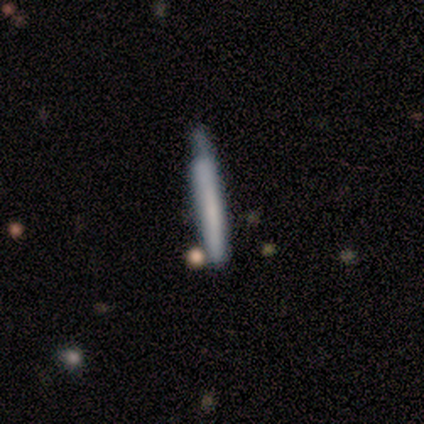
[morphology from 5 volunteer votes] A smooth galaxy with no disk features (60%) that is cigar-shaped (100%).

Vote fractions:
- Smooth or featured? smooth: 60% / featured or disk: 40% / star or artifact: 0%
- How rounded? cigar-shaped: 100% / round: 0% / in between: 0%
- Merging? none: 40% (tied) / minor disturbance: 40% (tied) / merger: 20% / major disturbance: 0%